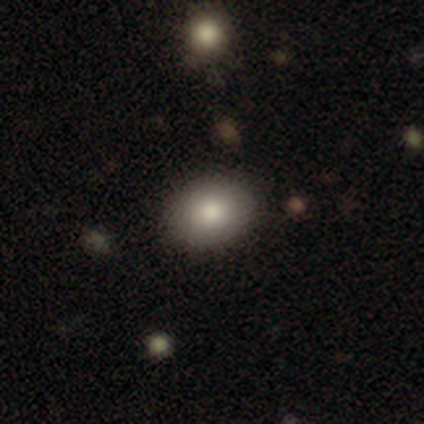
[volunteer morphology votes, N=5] Smooth or featured?
  - smooth: 100% *
  - featured or disk: 0%
  - star or artifact: 0%
How rounded?
  - round: 60% *
  - in between: 40%
  - cigar-shaped: 0%
Merging?
  - none: 100% *
  - minor disturbance: 0%
  - major disturbance: 0%
  - merger: 0%